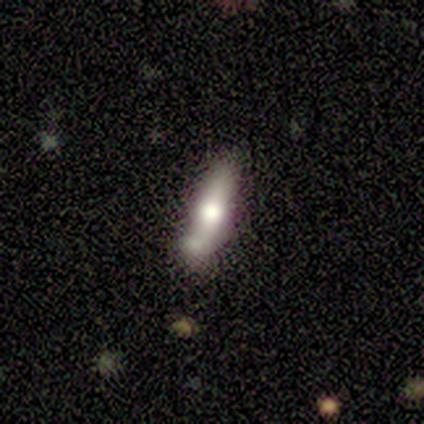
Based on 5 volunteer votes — Q: Smooth or featured?
A: smooth (80%); runner-up: featured or disk (20%)
Q: How rounded?
A: cigar-shaped (75%); runner-up: in between (25%)
Q: Merging?
A: merger (60%); runner-up: none (20%)